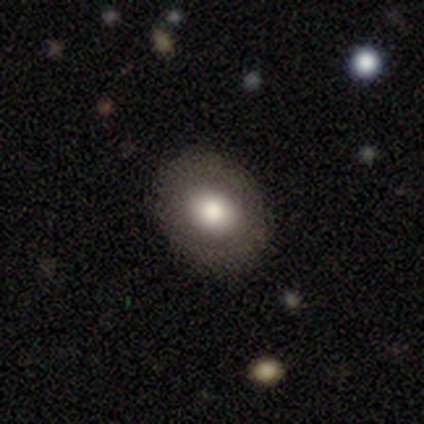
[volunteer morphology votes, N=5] type=smooth (60%); roundness=round (100%); merging=none (100%).